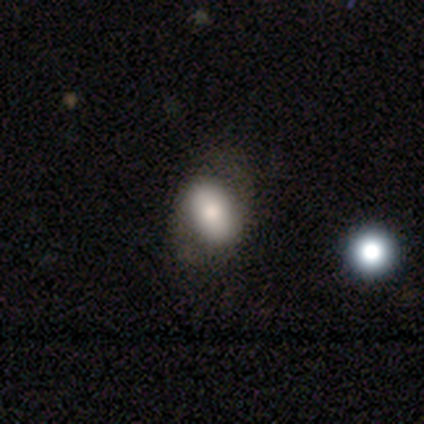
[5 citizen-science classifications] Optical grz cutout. It shows a smooth galaxy with no disk features (60%) that is in between round and cigar-shaped (100%). Merging: minor disturbance (60%).